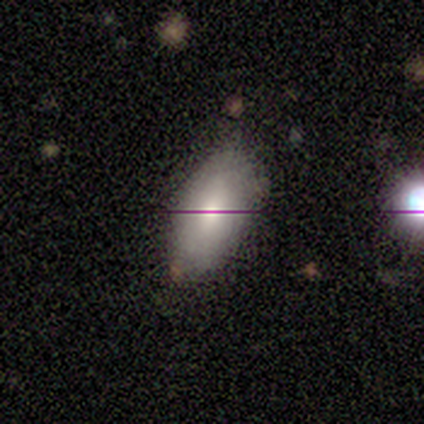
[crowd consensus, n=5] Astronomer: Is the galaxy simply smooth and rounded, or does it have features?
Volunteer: smooth — 100%.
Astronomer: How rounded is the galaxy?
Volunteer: in between — 100%.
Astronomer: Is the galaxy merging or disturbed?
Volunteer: none — 100%.